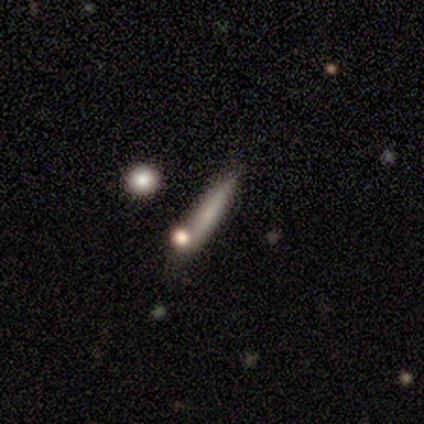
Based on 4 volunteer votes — This appears to be a smooth galaxy with no disk features (75%) that is cigar-shaped (100%). Merging: none (67%).